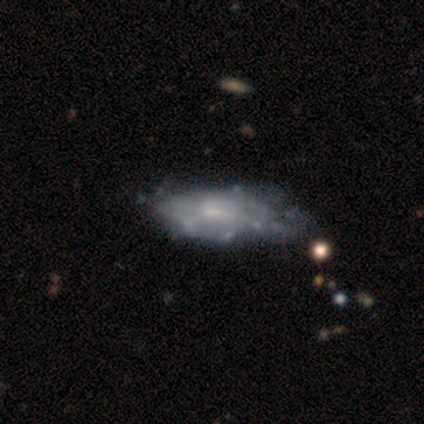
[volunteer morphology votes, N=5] Q: Smooth or featured?
A: smooth (80%); runner-up: featured or disk (20%)
Q: How rounded?
A: in between (100%)
Q: Merging?
A: minor disturbance (60%); runner-up: none (40%)